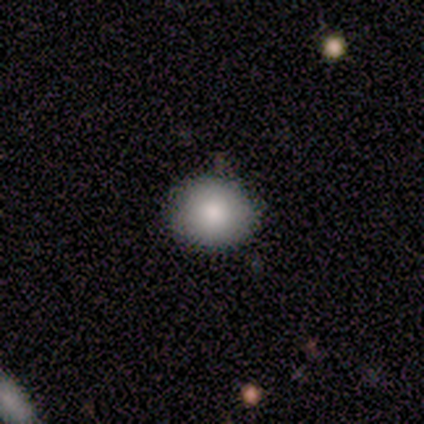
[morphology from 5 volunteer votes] smooth 80%, star or artifact 20%, featured or disk 0%. Down the decision tree: how rounded — round (75%); merging — none (50%, tied with minor disturbance).